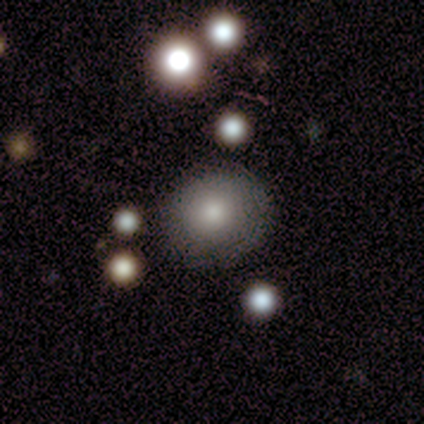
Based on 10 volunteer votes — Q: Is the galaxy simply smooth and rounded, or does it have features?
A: smooth — 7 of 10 (70%).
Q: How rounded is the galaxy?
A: round — 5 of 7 (71%).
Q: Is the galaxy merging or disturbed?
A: minor disturbance — 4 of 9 (44%).